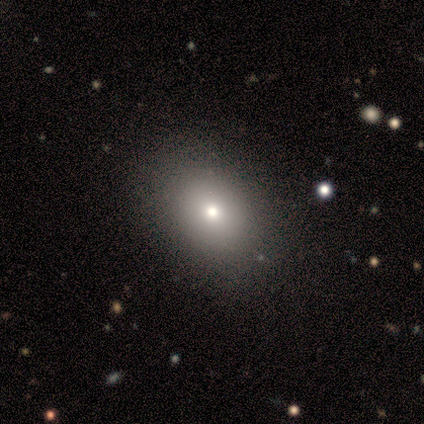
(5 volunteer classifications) Smooth or featured?
  - smooth: 60% *
  - featured or disk: 40%
  - star or artifact: 0%
How rounded?
  - round: 100% *
  - in between: 0%
  - cigar-shaped: 0%
Merging?
  - none: 60% *
  - minor disturbance: 40%
  - major disturbance: 0%
  - merger: 0%